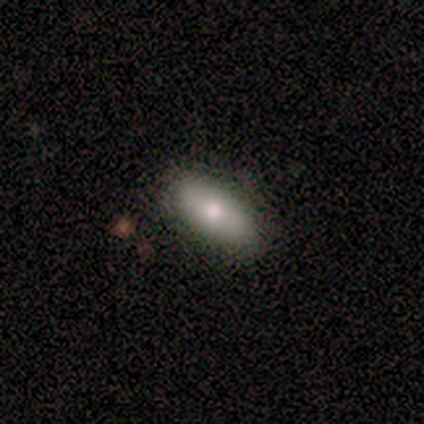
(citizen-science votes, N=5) smooth 60%, featured or disk 20%, star or artifact 20%. Down the decision tree: how rounded — in between (100%); merging — none (75%).